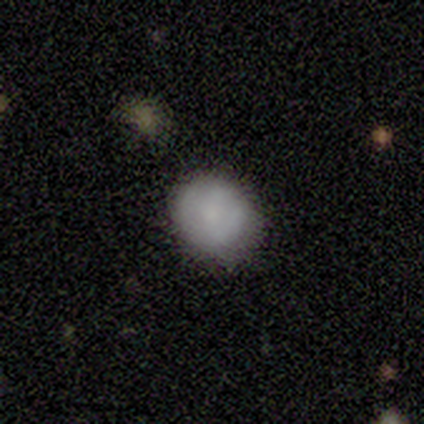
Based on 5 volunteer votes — smooth-or-featured: smooth: 100% | featured or disk: 0% | star or artifact: 0%
  how-rounded: round: 80% | in between: 20% | cigar-shaped: 0%
  merging: minor disturbance: 60% | none: 40% | major disturbance: 0% | merger: 0%